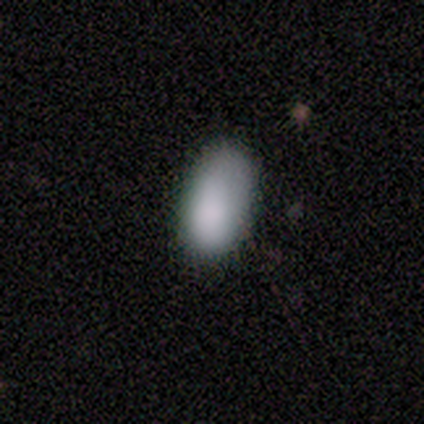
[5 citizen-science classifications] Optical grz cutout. It shows a smooth galaxy with no disk features (100%) that is in between round and cigar-shaped (100%). Merging: none (100%).